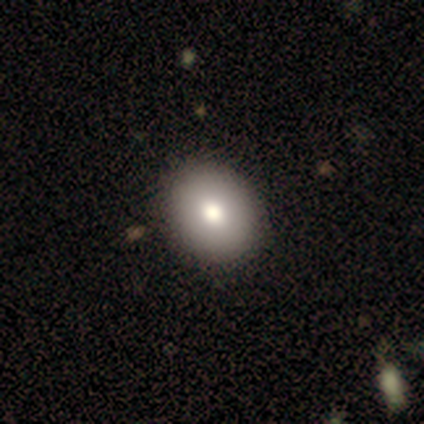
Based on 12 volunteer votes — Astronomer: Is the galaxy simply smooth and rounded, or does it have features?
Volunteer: smooth — 75%.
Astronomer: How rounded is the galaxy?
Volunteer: round — 67%.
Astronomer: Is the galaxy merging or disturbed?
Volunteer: none — 100%.